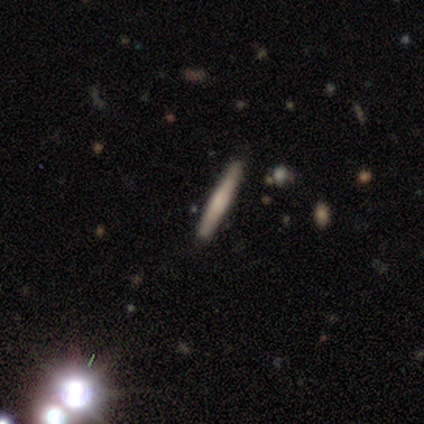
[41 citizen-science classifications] smooth_or_featured: featured or disk (p=0.49) [alt: smooth p=0.34]
disk_edge_on: yes (p=1.00)
edge_on_bulge: rounded (p=0.50) [alt: none p=0.35]
merging: none (p=0.91) [alt: merger p=0.06]